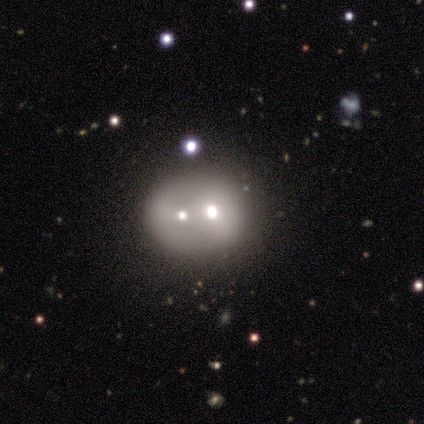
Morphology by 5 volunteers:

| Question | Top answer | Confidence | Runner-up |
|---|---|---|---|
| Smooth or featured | smooth | 80% | featured or disk (20%) |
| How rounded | round | 75% | in between (25%) |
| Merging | merger | 60% | none (40%) |